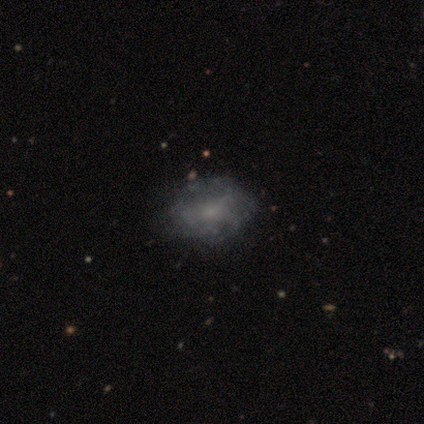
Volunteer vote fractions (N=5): Q: Smooth or featured?
A: featured or disk (80%); runner-up: smooth (20%)
Q: Edge-on disk?
A: no (100%)
Q: Bar?
A: no (100%)
Q: Spiral arms?
A: yes (75%); runner-up: no (25%)
Q: Spiral winding?
A: tight (67%); runner-up: loose (33%)
Q: Spiral arm count?
A: can't tell (67%); runner-up: 4 (33%)
Q: Bulge size?
A: small (50%); tied with: none (50%)
Q: Merging?
A: none (80%); runner-up: minor disturbance (20%)